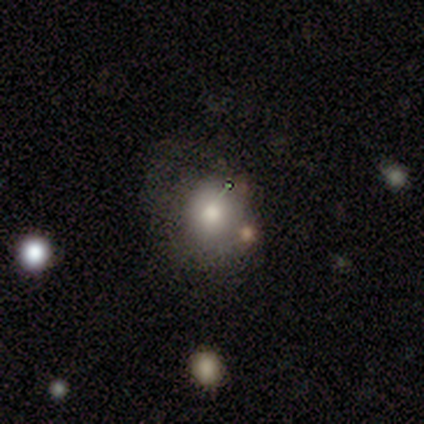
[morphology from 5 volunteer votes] A smooth galaxy with no disk features (40%, tied with featured or disk) that is round (100%). Merging: none (50%).